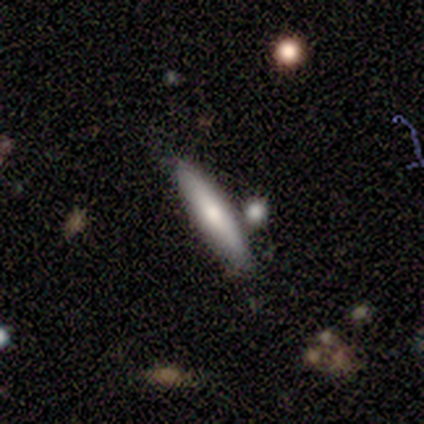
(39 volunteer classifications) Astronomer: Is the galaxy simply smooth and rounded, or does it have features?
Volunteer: smooth — 62%.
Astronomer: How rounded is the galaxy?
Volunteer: cigar-shaped — 92%.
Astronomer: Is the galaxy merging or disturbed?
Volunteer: none — 59%.